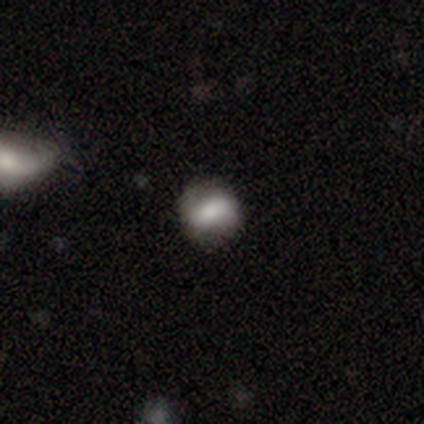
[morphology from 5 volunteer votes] Q: Smooth or featured?
A: smooth (80%); runner-up: featured or disk (20%)
Q: How rounded?
A: round (50%); tied with: in between (50%)
Q: Merging?
A: none (60%); runner-up: minor disturbance (40%)